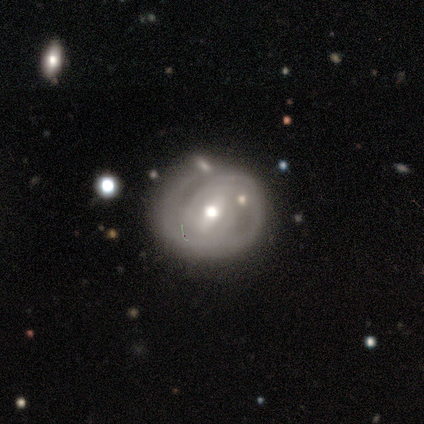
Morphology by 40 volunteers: Smooth or featured? featured or disk (78%)
Edge-on disk? no (97%)
Bar? weak (47%)
Spiral arms? yes (83%)
Spiral winding? tight (72%)
Spiral arm count? 1 (32%, tied with 2)
Bulge size? moderate (73%)
Merging? none (72%)